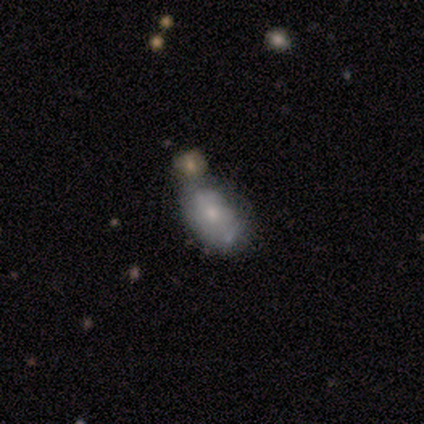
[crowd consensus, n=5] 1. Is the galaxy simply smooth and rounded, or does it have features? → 80% smooth, 20% featured or disk, 0% star or artifact.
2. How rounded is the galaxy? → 100% in between, 0% round, 0% cigar-shaped.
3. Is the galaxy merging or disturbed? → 60% minor disturbance, 20% none, 20% major disturbance, 0% merger.